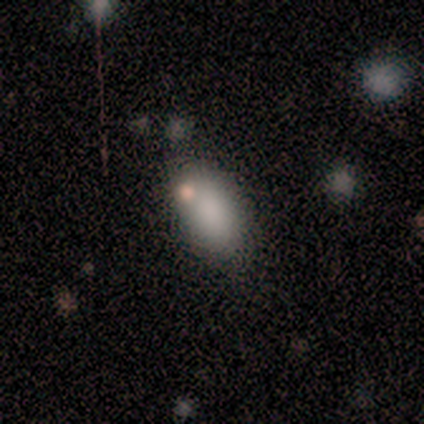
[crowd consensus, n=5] A smooth galaxy with no disk features (100%) that is in between round and cigar-shaped (100%). Merging: none (60%).